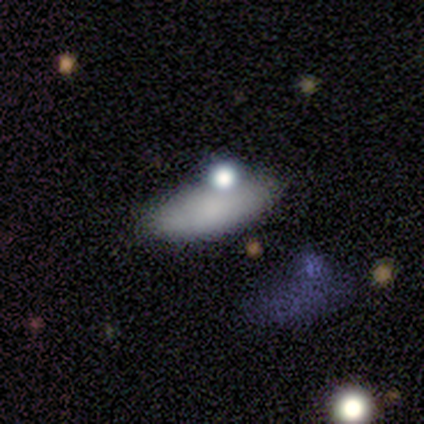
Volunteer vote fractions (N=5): Smooth or featured? 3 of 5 (60%) said smooth. How rounded? 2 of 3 (67%) said cigar-shaped. Merging? 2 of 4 (50%) said none.